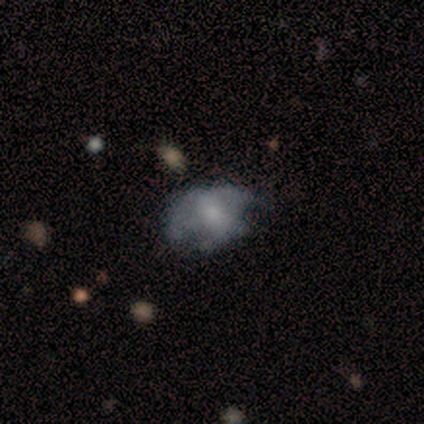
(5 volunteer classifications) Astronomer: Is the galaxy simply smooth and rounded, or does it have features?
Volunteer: featured or disk — 80%.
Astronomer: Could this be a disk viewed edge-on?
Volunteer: no — 100%.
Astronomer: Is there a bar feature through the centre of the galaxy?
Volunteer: no — 100%.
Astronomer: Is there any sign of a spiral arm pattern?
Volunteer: no — 100%.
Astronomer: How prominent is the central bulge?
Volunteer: large — 50%.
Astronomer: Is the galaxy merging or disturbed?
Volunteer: major disturbance — 60% (runner-up: minor disturbance, 40%).